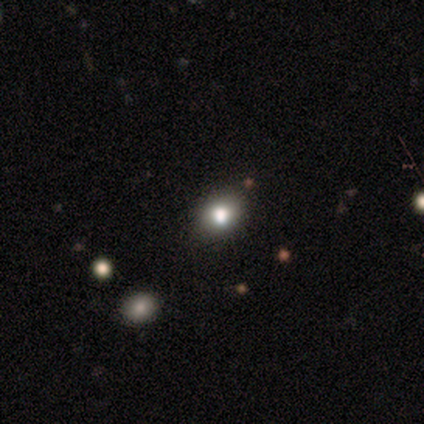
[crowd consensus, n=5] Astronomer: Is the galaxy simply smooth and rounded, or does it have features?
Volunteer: smooth — 60% (runner-up: featured or disk, 40%).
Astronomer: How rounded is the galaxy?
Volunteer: in between — 100%.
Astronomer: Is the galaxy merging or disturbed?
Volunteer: none — 60%.